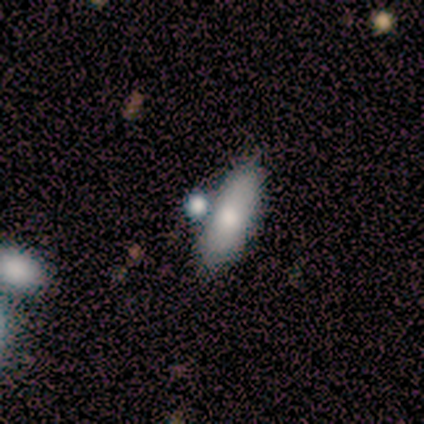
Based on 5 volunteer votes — Smooth or featured? smooth (100%)
How rounded? in between (100%)
Merging? none (100%)